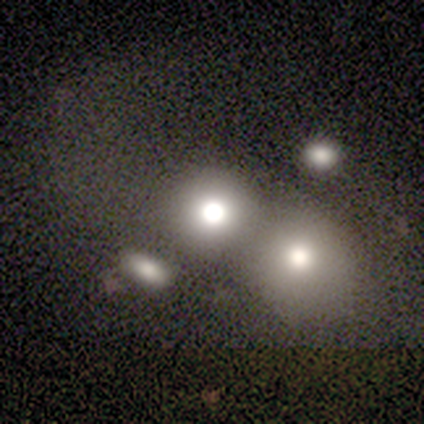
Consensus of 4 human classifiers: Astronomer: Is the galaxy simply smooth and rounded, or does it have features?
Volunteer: smooth — 75%.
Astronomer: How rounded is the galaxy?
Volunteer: round — 67%.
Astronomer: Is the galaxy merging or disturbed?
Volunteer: none — 50%, tied with merger at 50%.